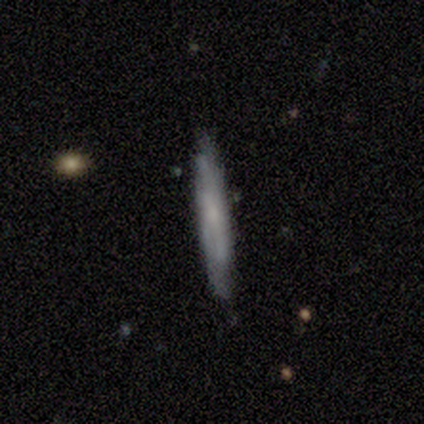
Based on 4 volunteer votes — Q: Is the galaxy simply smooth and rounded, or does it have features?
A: smooth — 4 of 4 (100%).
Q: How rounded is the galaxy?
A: cigar-shaped — 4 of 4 (100%).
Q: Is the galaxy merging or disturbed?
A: none — 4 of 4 (100%).